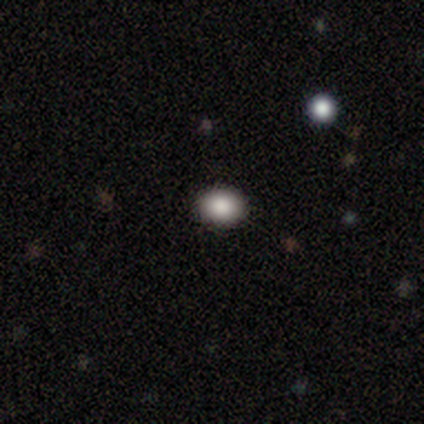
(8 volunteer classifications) This appears to be a smooth galaxy with no disk features (62%) that is round (60%). Merging: none (100%).